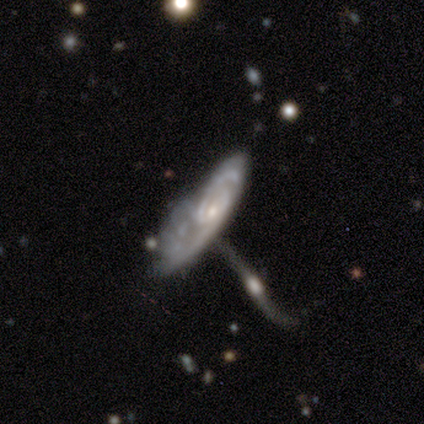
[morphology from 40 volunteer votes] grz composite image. It shows a featured or disk galaxy (88%) with no bar (79%), 2 (48%) tight (69%) spiral arms (100%) and a small central bulge (79%). Merging: merger (38%).